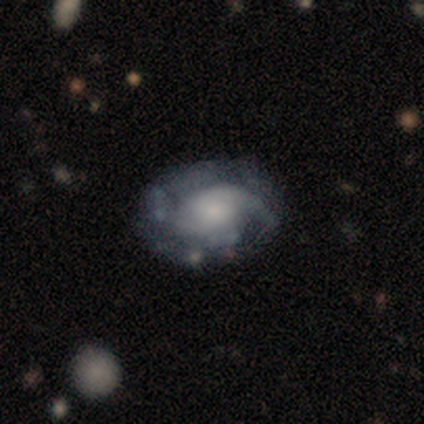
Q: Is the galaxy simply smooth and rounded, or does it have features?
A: featured or disk — 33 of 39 (85%).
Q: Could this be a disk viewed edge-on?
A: no — 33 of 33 (100%).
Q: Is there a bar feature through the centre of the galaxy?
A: no — 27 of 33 (82%).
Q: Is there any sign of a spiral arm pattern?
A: yes — 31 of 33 (94%).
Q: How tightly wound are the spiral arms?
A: medium — 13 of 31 (42%).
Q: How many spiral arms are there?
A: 2 — 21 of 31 (68%).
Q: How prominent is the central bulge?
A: small — 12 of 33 (36%).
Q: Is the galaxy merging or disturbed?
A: none — 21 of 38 (55%).